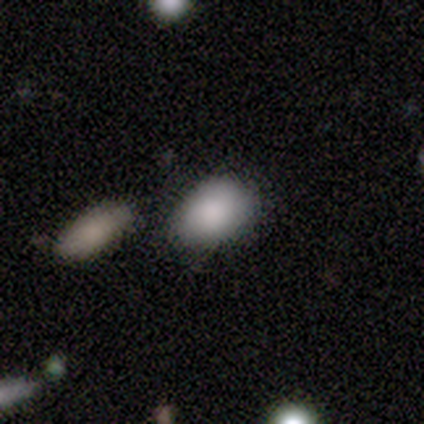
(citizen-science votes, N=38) This appears to be a smooth galaxy with no disk features (79%) that is in between round and cigar-shaped (80%). Merging: none (67%).